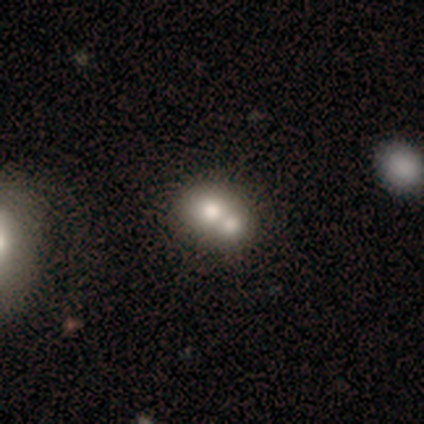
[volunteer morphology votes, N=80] Smooth or featured?
  - smooth: 75% *
  - featured or disk: 18%
  - star or artifact: 8%
How rounded?
  - round: 67% *
  - in between: 33%
  - cigar-shaped: 0%
Merging?
  - merger: 72% *
  - none: 15%
  - minor disturbance: 3%
  - major disturbance: 1%